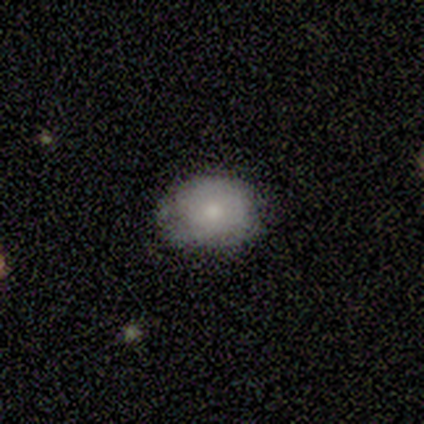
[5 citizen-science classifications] This is likely a smooth galaxy (60%). How rounded: likely round (67%). Merging: likely minor disturbance (60%).